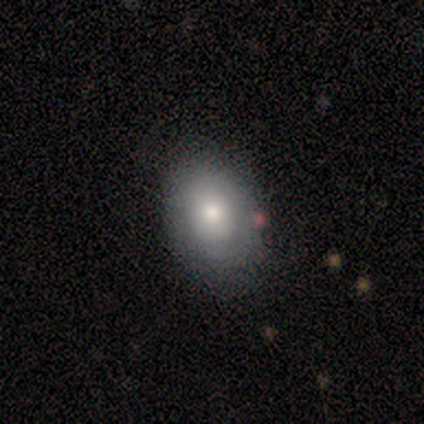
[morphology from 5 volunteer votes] This appears to be a smooth galaxy with no disk features (100%) that is in between round and cigar-shaped (100%). Merging: none (60%).